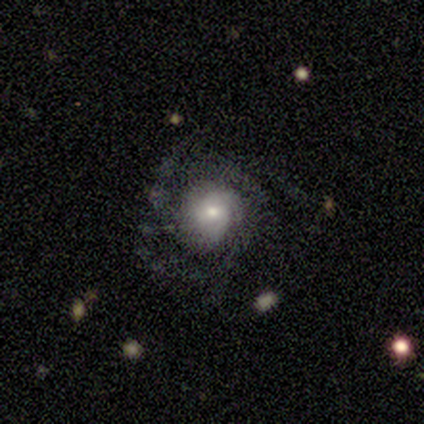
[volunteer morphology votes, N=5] A featured or disk galaxy (80%) with no bar (100%), 2 (25%, tied with 3, 4 and can't tell) medium (50%) spiral arms (100%) and a moderate central bulge (50%, tied with small). Merging: none (80%).